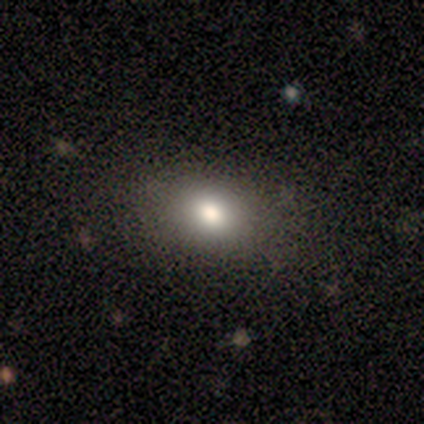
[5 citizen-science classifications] smooth-or-featured: smooth: 80% | star or artifact: 20% | featured or disk: 0%
  how-rounded: round: 50% (tied) | in between: 50% (tied) | cigar-shaped: 0%
  merging: none: 75% | major disturbance: 25% | minor disturbance: 0% | merger: 0%